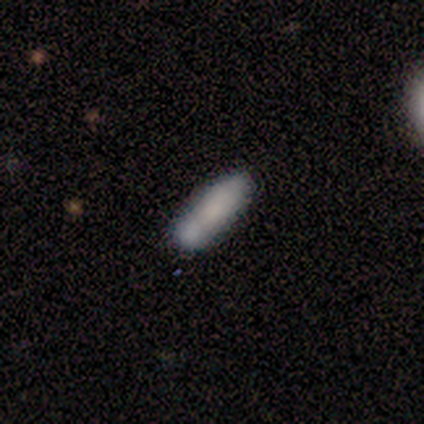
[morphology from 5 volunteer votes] Smooth or featured: smooth — 100%
How rounded: cigar-shaped — 80% (in between — 20%)
Merging: none — 80% (merger — 20%)